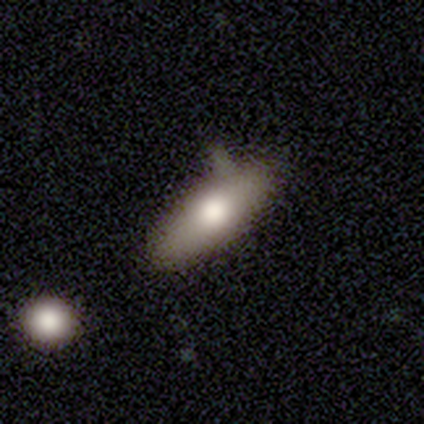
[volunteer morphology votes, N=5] Overall: featured or disk (60%; smooth 40%). Edge-on disk: no (67%; yes 33%). Bar: weak (50%, tied with no). Spiral arms: yes (50%, tied with no). Spiral arm count: 2 (100%). Spiral winding: medium (100%). Bulge size: moderate (100%). Merging: none (60%; minor disturbance 40%).